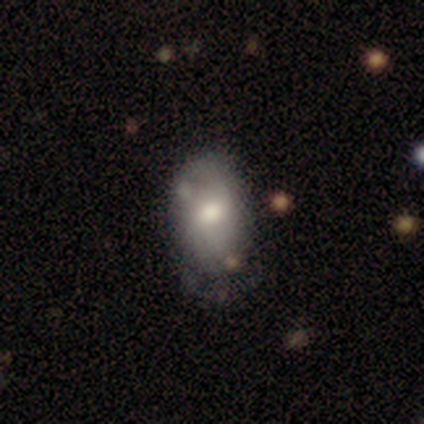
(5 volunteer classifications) Smooth or featured: smooth — 80% (featured or disk — 20%)
How rounded: in between — 75% (round — 25%)
Merging: none — 80% (minor disturbance — 20%)